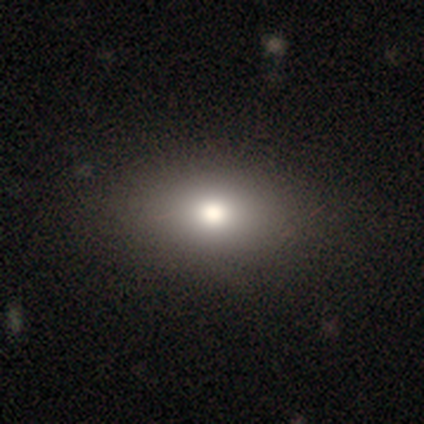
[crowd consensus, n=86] A smooth galaxy with no disk features (76%) that is in between round and cigar-shaped (78%). Merging: none (89%).